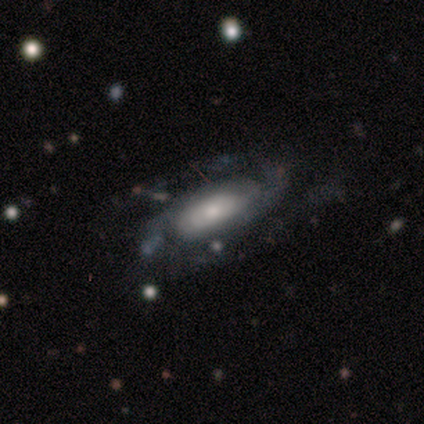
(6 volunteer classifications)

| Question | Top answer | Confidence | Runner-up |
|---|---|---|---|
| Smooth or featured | featured or disk | 50% | smooth (33%) |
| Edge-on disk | no | 67% | yes (33%) |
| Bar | no | 100% | — |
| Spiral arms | yes | 100% | — |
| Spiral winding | tight | 50% | tied: medium (50%) |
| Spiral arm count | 2 | 100% | — |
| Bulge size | moderate | 50% | tied: small (50%) |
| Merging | none | 60% | major disturbance (40%) |